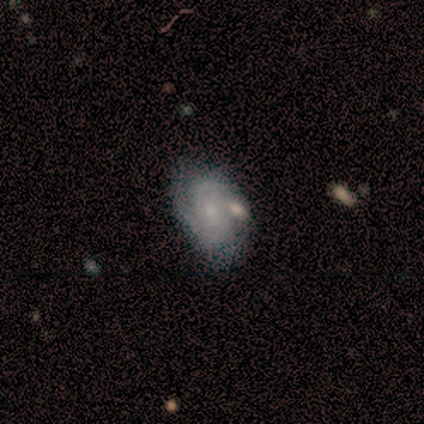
A featured or disk galaxy (80%) with no bar (67%), 2 (50%, tied with can't tell) tight (50%, tied with loose) spiral arms (67%) and a small central bulge (67%).

Vote fractions:
- Smooth or featured? featured or disk: 80% / smooth: 20% / star or artifact: 0%
- Edge-on disk? no: 75% / yes: 25%
- Bar? no: 67% / weak: 33% / strong: 0%
- Spiral arms? yes: 67% / no: 33%
- Spiral winding? tight: 50% (tied) / loose: 50% (tied) / medium: 0%
- Spiral arm count? 2: 50% (tied) / can't tell: 50% (tied) / 1: 0% / 3: 0% / 4: 0% / more than 4: 0%
- Bulge size? small: 67% / none: 33% / dominant: 0% / large: 0% / moderate: 0%
- Merging? none: 60% / minor disturbance: 40% / major disturbance: 0% / merger: 0%